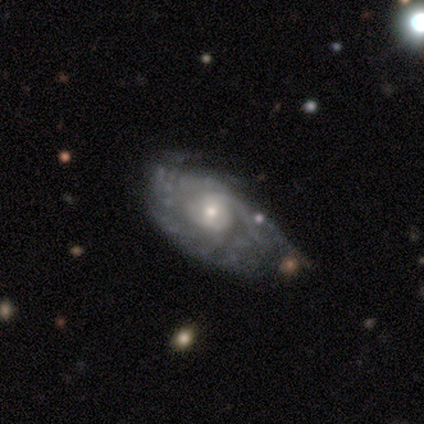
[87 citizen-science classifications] Morphology: type=featured or disk (80%); edge-on=no (96%); bar=no (67%); spiral arms=yes (78%); winding=tight (62%); arm count=can't tell (67%); bulge=small (55%); merging=none (39%).